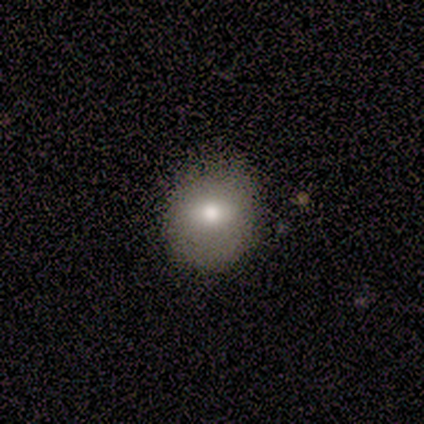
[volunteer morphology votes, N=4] Smooth or featured?
  - smooth: 100% *
  - featured or disk: 0%
  - star or artifact: 0%
How rounded?
  - round: 75% *
  - in between: 25%
  - cigar-shaped: 0%
Merging?
  - none: 100% *
  - minor disturbance: 0%
  - major disturbance: 0%
  - merger: 0%